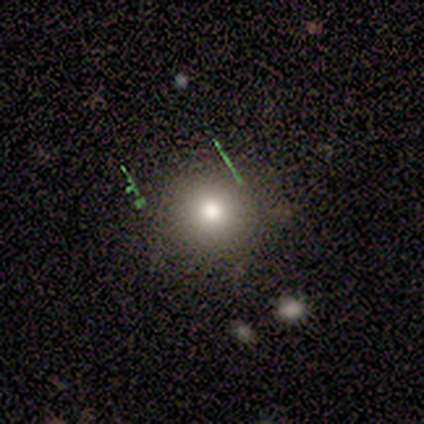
Smooth or featured? 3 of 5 (60%) said smooth. How rounded? 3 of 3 (100%) said round. Merging? 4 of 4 (100%) said none.